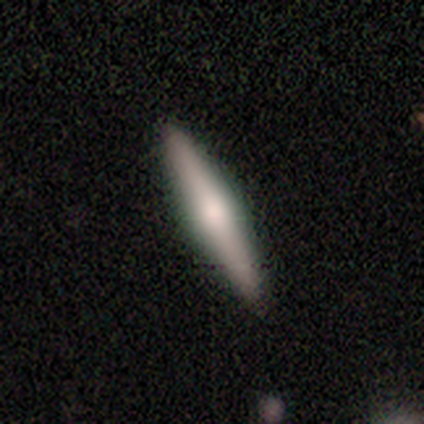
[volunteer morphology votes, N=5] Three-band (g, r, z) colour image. It shows a featured or disk galaxy (60%) viewed edge-on (100%) with a rounded central bulge (100%). Merging: none (75%).